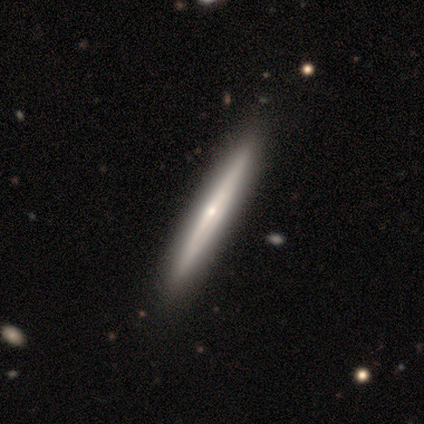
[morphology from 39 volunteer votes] smooth_or_featured: featured or disk (p=0.79) [alt: smooth p=0.15]
disk_edge_on: yes (p=0.97) [alt: no p=0.03]
edge_on_bulge: rounded (p=0.67) [alt: none p=0.33]
merging: none (p=0.62) [alt: minor disturbance p=0.08]